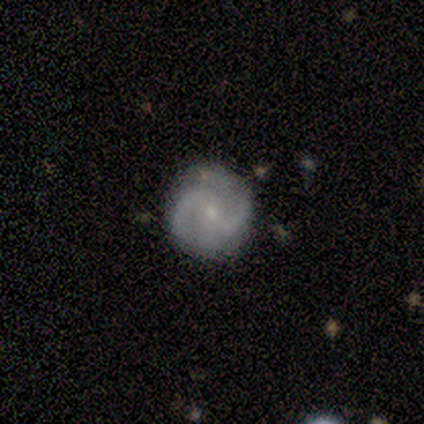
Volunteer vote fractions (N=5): Smooth or featured?
  - featured or disk: 80% *
  - smooth: 20%
  - star or artifact: 0%
Edge-on disk?
  - no: 100% *
  - yes: 0%
Bar?
  - strong: 50% * (tied)
  - no: 50% * (tied)
  - weak: 0%
Spiral arms?
  - yes: 100% *
  - no: 0%
Spiral winding?
  - medium: 50% *
  - tight: 25%
  - loose: 25%
Spiral arm count?
  - 2: 100% *
  - 1: 0%
  - 3: 0%
  - 4: 0%
  - more than 4: 0%
  - can't tell: 0%
Bulge size?
  - small: 100% *
  - dominant: 0%
  - large: 0%
  - moderate: 0%
  - none: 0%
Merging?
  - none: 100% *
  - minor disturbance: 0%
  - major disturbance: 0%
  - merger: 0%